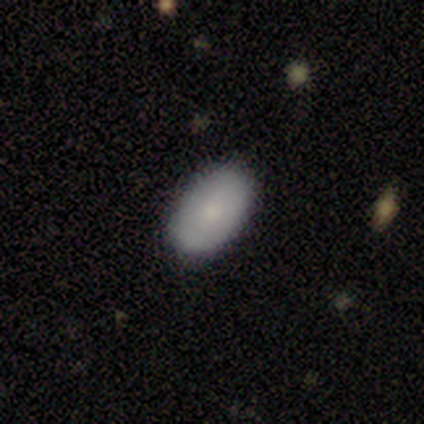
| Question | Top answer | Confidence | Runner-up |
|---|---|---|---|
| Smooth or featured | smooth | 60% | featured or disk (40%) |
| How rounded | in between | 67% | round (33%) |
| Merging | none | 100% | — |